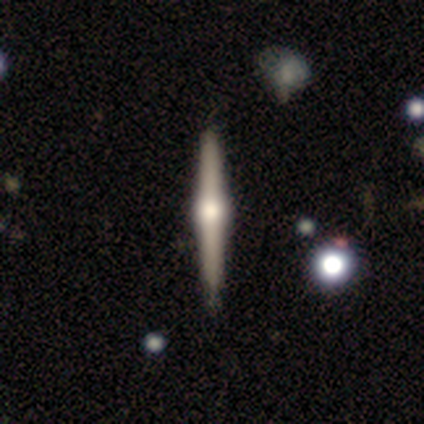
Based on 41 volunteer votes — Smooth or featured? featured or disk (85%)
Edge-on disk? yes (100%)
Edge-on bulge? rounded (97%)
Merging? none (82%)